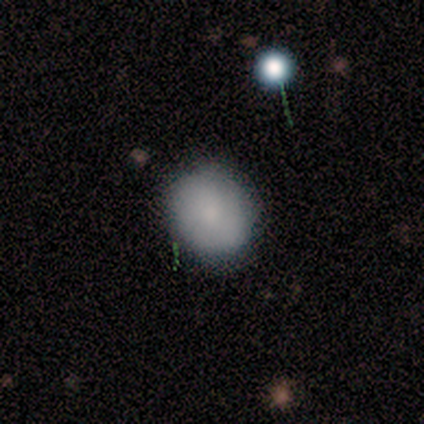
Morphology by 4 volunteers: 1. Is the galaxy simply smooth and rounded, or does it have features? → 100% smooth, 0% featured or disk, 0% star or artifact.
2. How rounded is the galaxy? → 100% round, 0% in between, 0% cigar-shaped.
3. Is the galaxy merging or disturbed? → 100% none, 0% minor disturbance, 0% major disturbance, 0% merger.